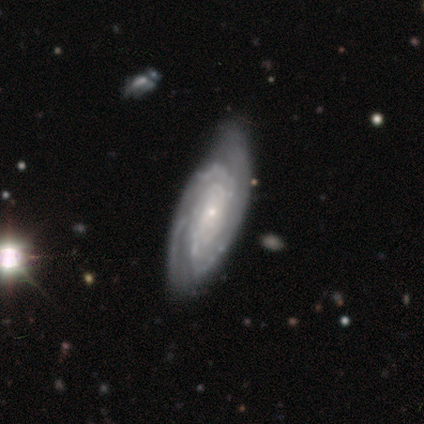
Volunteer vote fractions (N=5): Overall: featured or disk (100%). Edge-on disk: no (100%). Bar: no (60%; weak 40%). Spiral arms: yes (100%). Spiral arm count: 3 (60%; 4 20%). Spiral winding: tight (80%). Bulge size: small (60%; moderate 20%). Merging: none (80%).